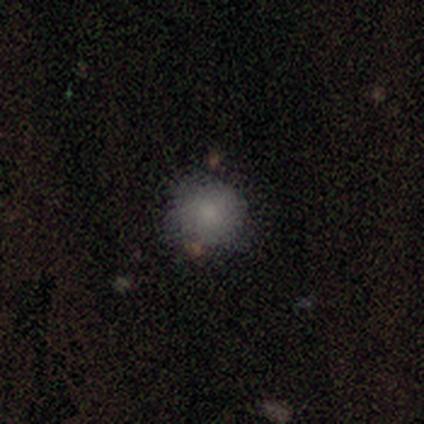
Volunteers were most divided on "smooth or featured": smooth: 80%, star or artifact: 20%, featured or disk: 0%. More confident: how rounded — round (100%); merging — none (100%).